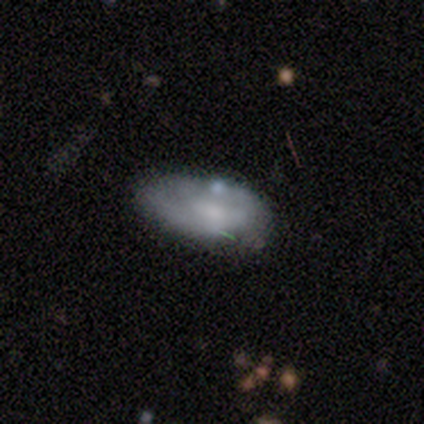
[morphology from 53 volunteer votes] smooth 47% (tied), featured or disk 47% (tied), star or artifact 6%. Down the decision tree: how rounded — in between (92%); merging — none (62%).